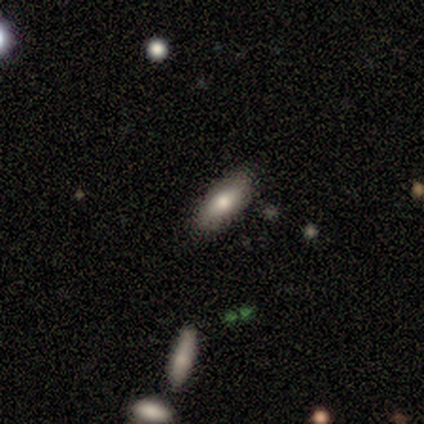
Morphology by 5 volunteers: Smooth or featured? 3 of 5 (60%) said smooth. How rounded? 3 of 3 (100%) said in between. Merging? 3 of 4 (75%) said none.